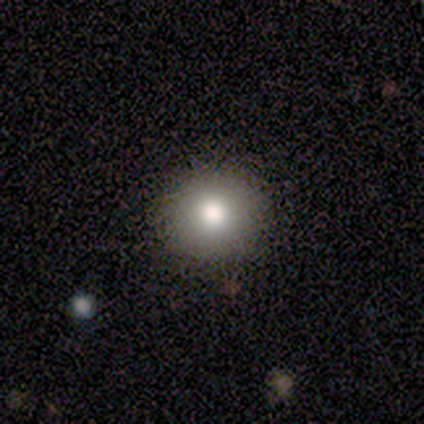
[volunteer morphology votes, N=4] smooth-or-featured: smooth: 75% | star or artifact: 25% | featured or disk: 0%
  how-rounded: round: 67% | cigar-shaped: 33% | in between: 0%
  merging: none: 100% | minor disturbance: 0% | major disturbance: 0% | merger: 0%